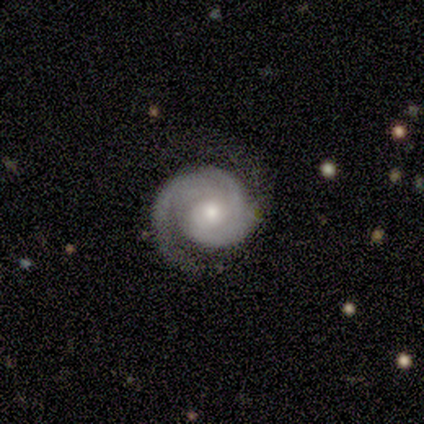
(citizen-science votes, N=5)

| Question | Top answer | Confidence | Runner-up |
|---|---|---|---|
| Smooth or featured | featured or disk | 100% | — |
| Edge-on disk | no | 100% | — |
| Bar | no | 60% | weak (40%) |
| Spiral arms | yes | 100% | — |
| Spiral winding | medium | 60% | tight (40%) |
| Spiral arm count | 2 | 60% | 1 (40%) |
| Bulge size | moderate | 60% | small (40%) |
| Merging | none | 80% | minor disturbance (20%) |